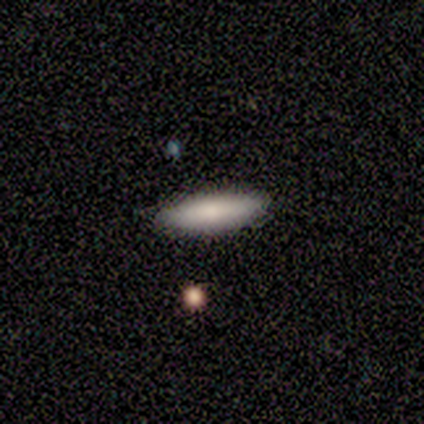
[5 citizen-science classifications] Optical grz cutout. It shows a smooth galaxy with no disk features (80%) that is cigar-shaped (75%). Merging: none (100%).